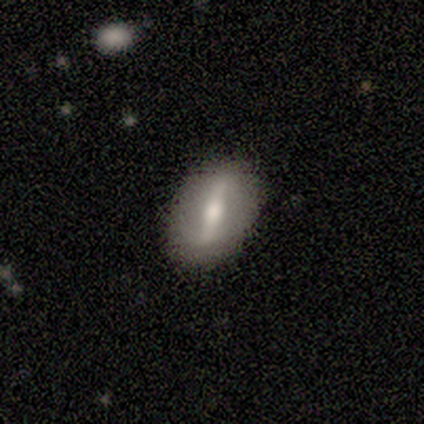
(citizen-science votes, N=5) Overall: featured or disk (80%). Edge-on disk: no (75%). Bar: strong (67%; weak 33%). Spiral arms: no (67%; yes 33%). Bulge size: moderate (100%). Merging: none (80%).